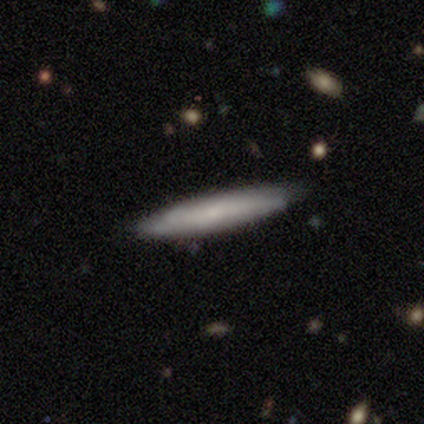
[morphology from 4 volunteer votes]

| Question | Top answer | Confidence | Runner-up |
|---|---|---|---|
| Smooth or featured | featured or disk | 75% | smooth (25%) |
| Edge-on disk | yes | 67% | no (33%) |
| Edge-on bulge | none | 50% | tied: rounded (50%) |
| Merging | none | 75% | minor disturbance (25%) |